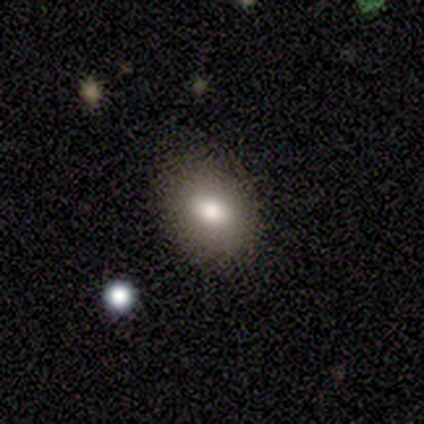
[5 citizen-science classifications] Volunteers were most divided on "how rounded" (2-way tie): round: 50%, in between: 50%, cigar-shaped: 0%. More confident: smooth or featured — smooth (80%); merging — minor disturbance (80%).